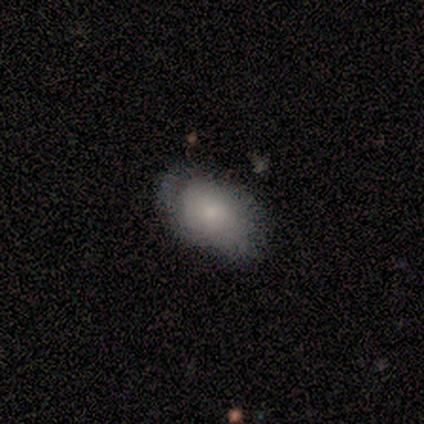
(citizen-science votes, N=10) This is possibly a smooth galaxy (50%). How rounded: clearly in between (100%). Merging: likely none (78%).